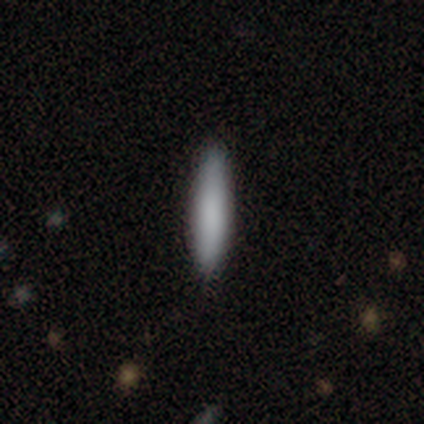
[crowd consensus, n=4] Smooth or featured: smooth — 100%
How rounded: in between — 50% (tied with cigar-shaped — 50%)
Merging: none — 75% (minor disturbance — 25%)